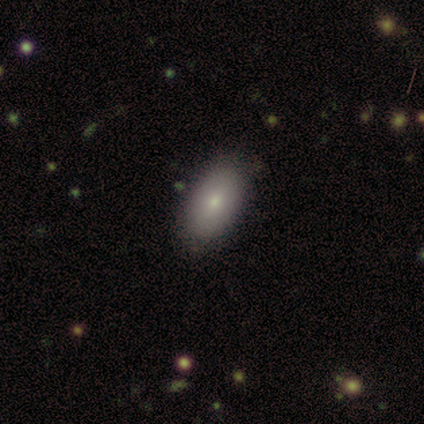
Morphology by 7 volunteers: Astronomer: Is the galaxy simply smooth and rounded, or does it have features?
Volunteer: smooth — 57%.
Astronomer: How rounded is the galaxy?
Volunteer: in between — 100%.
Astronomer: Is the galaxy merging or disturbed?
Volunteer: none — 83%.